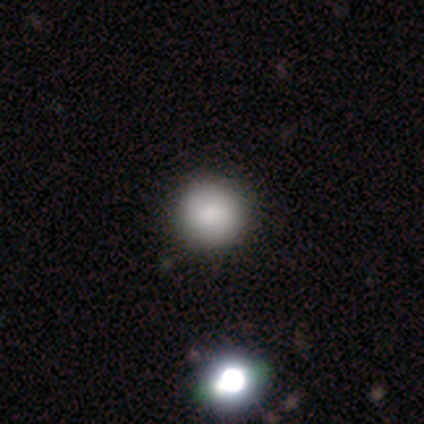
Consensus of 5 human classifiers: A smooth galaxy with no disk features (100%) that is round (80%).

Vote fractions:
- Smooth or featured? smooth: 100% / featured or disk: 0% / star or artifact: 0%
- How rounded? round: 80% / in between: 20% / cigar-shaped: 0%
- Merging? none: 80% / minor disturbance: 20% / major disturbance: 0% / merger: 0%